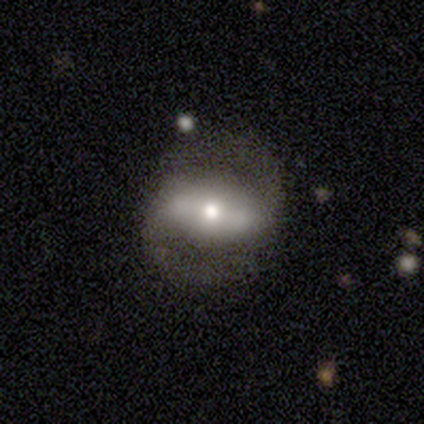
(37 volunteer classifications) Morphology: type=featured or disk (65%); edge-on=no (83%); bar=strong (65%); spiral arms=yes (80%); winding=medium (56%); arm count=2 (100%); bulge=moderate (70%); merging=none (73%).